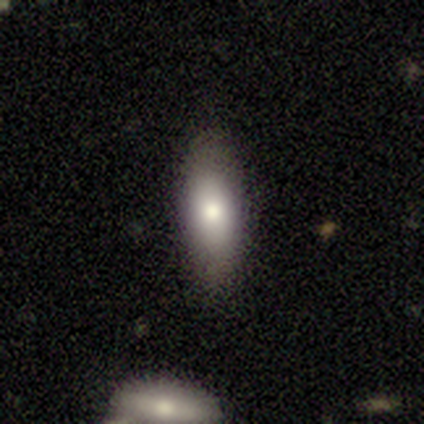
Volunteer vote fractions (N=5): Overall: smooth (100%). How rounded: in between (100%). Merging: none (100%).